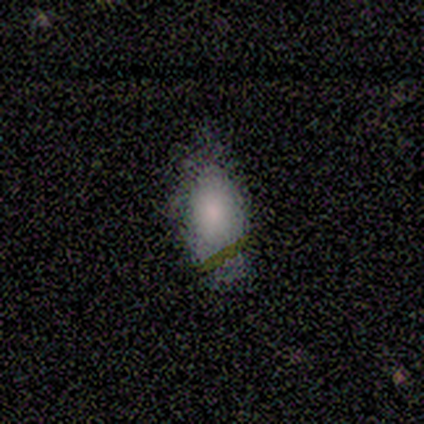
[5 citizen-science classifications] Smooth or featured? 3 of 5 (60%) said smooth. How rounded? 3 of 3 (100%) said in between. Merging? 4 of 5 (80%) said none.